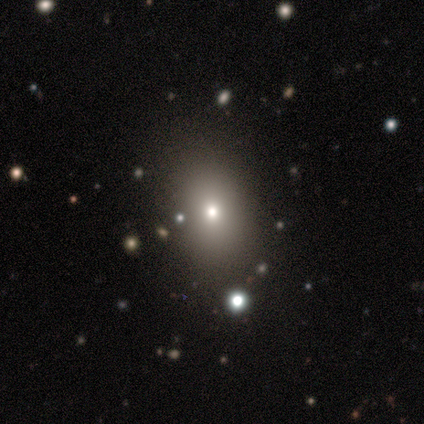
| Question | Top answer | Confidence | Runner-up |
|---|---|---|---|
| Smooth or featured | star or artifact | 60% | smooth (40%) |